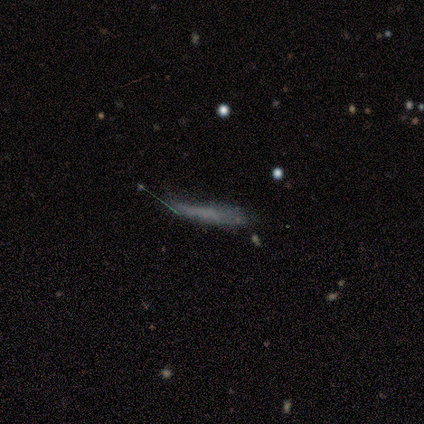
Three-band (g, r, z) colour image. It shows a smooth galaxy with no disk features (58%) that is cigar-shaped (76%). Merging: none (49%).